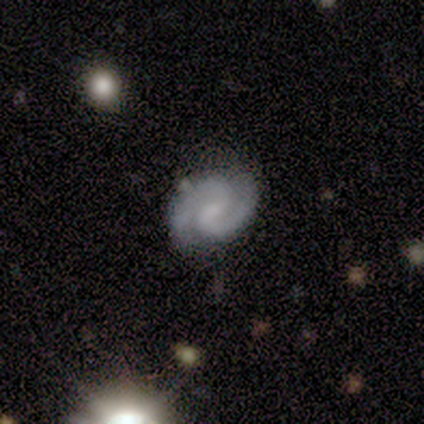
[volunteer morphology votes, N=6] smooth_or_featured: featured or disk (p=0.67) [alt: smooth p=0.17]
disk_edge_on: no (p=1.00)
bar: weak (p=0.50) [tied with: no p=0.50]
has_spiral_arms: yes (p=1.00)
spiral_winding: tight (p=0.50) [tied with: medium p=0.50]
spiral_arm_count: 2 (p=1.00)
bulge_size: small (p=0.75) [alt: moderate p=0.25]
merging: none (p=0.80) [alt: minor disturbance p=0.20]